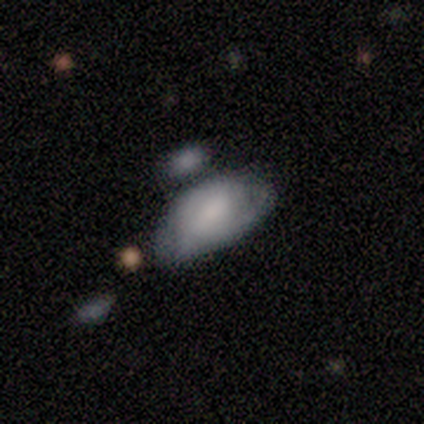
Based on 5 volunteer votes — Smooth or featured? smooth (80%)
How rounded? in between (100%)
Merging? none (60%)